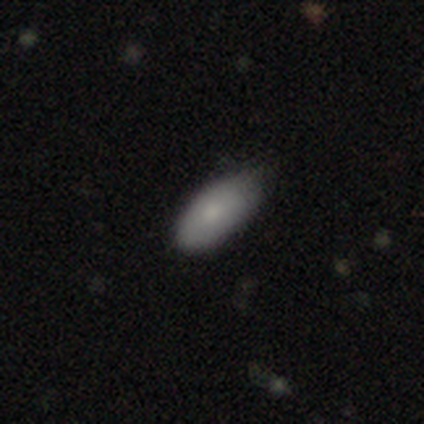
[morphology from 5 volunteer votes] A smooth galaxy with no disk features (60%) that is in between round and cigar-shaped (100%).

Vote fractions:
- Smooth or featured? smooth: 60% / featured or disk: 20% / star or artifact: 20%
- How rounded? in between: 100% / round: 0% / cigar-shaped: 0%
- Merging? none: 50% (tied) / minor disturbance: 50% (tied) / major disturbance: 0% / merger: 0%